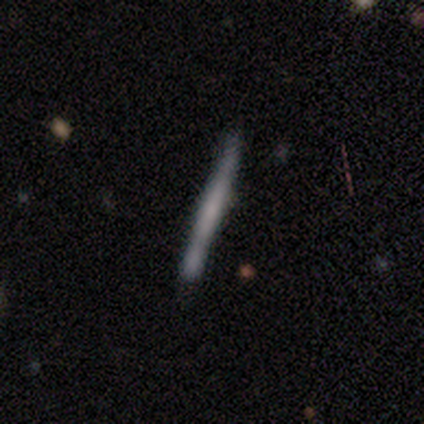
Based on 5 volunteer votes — Smooth or featured?
  - smooth: 60% *
  - featured or disk: 40%
  - star or artifact: 0%
How rounded?
  - cigar-shaped: 100% *
  - round: 0%
  - in between: 0%
Merging?
  - none: 80% *
  - minor disturbance: 20%
  - major disturbance: 0%
  - merger: 0%